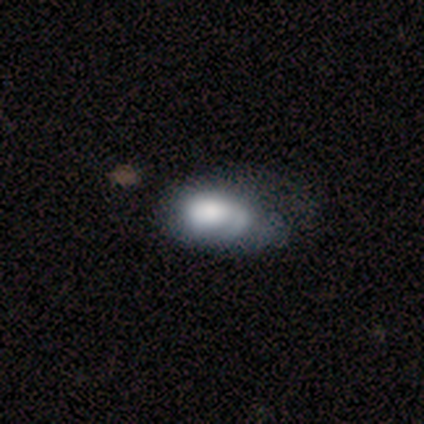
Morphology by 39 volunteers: type=smooth (49%, tied with featured or disk); roundness=in between (89%); merging=minor disturbance (45%).